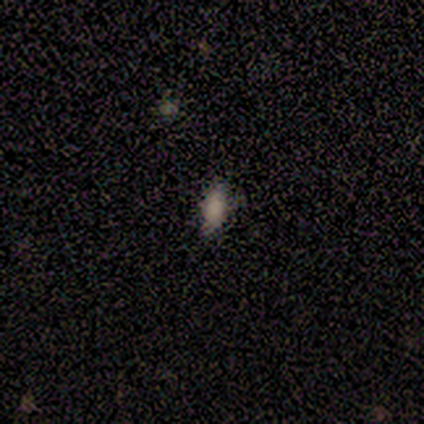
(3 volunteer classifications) Overall: smooth (67%; featured or disk 33%). How rounded: in between (100%). Merging: none (100%).